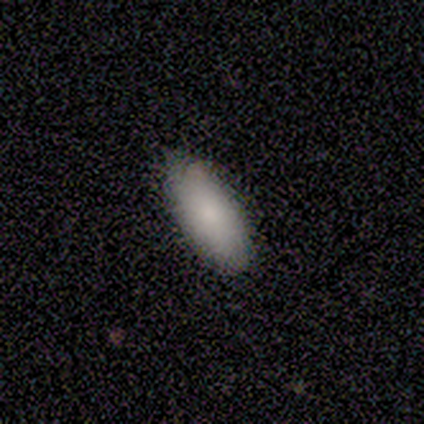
smooth 80%, featured or disk 20%, star or artifact 0%. Down the decision tree: how rounded — in between (100%); merging — none (80%).